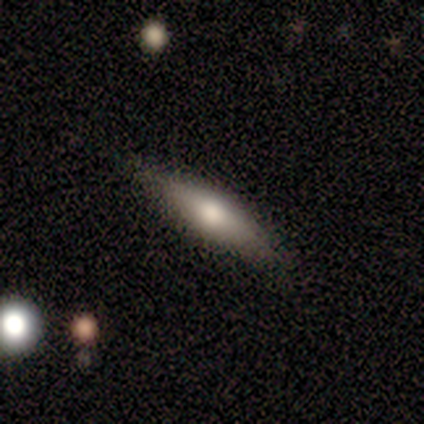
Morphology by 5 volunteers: Volunteers were most divided on "edge-on bulge": rounded: 67%, boxy: 33%, none: 0%. More confident: edge-on disk — yes (100%); merging — none (75%); smooth or featured — featured or disk (60%).